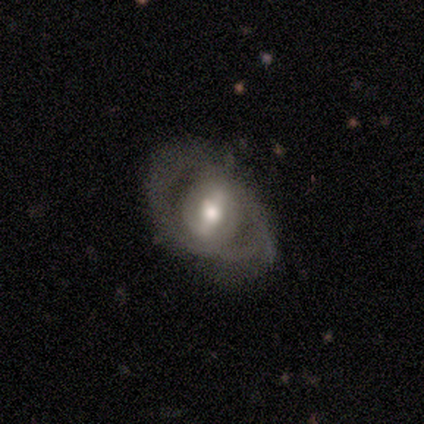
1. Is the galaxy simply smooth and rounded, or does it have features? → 67% featured or disk, 33% smooth, 0% star or artifact.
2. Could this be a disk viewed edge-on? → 100% no, 0% yes.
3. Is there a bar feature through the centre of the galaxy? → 50% strong (tied), 50% no (tied), 0% weak.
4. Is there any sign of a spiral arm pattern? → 100% yes, 0% no.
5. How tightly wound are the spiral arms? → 50% medium (tied), 50% loose (tied), 0% tight.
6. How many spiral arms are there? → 100% 2, 0% 1, 0% 3, 0% 4, 0% more than 4, 0% can't tell.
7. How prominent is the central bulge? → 50% large (tied), 50% moderate (tied), 0% dominant, 0% small, 0% none.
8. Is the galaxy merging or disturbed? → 33% none (tied), 33% minor disturbance (tied), 33% merger (tied), 0% major disturbance.